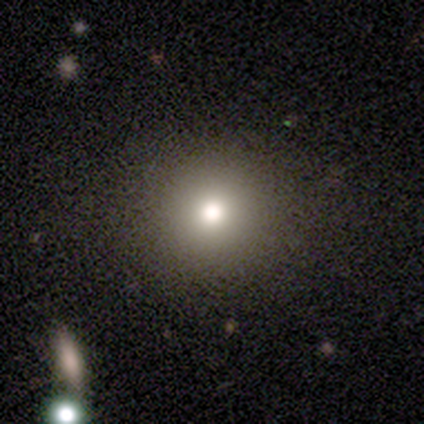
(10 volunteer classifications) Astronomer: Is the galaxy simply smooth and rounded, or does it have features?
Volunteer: smooth — 70%.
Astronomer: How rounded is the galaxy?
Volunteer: round — 100%.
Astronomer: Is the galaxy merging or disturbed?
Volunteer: none — 88%.